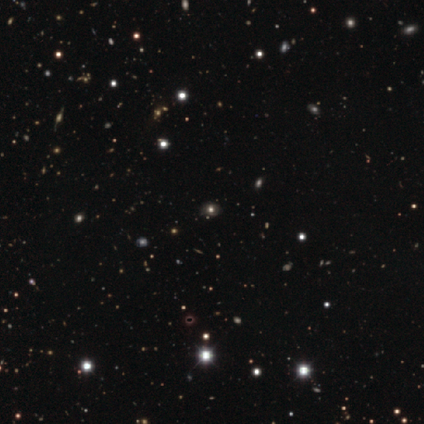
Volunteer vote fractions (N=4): Smooth or featured?
  - featured or disk: 50% * (tied)
  - star or artifact: 50% * (tied)
  - smooth: 0%
Edge-on disk?
  - no: 100% *
  - yes: 0%
Bar?
  - no: 100% *
  - strong: 0%
  - weak: 0%
Spiral arms?
  - no: 100% *
  - yes: 0%
Bulge size?
  - large: 50% * (tied)
  - none: 50% * (tied)
  - dominant: 0%
  - moderate: 0%
  - small: 0%
Merging?
  - none: 100% *
  - minor disturbance: 0%
  - major disturbance: 0%
  - merger: 0%